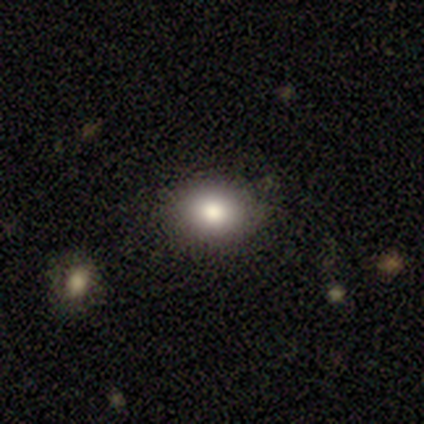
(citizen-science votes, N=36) A smooth galaxy with no disk features (75%) that is in between round and cigar-shaped (59%). Merging: none (87%).